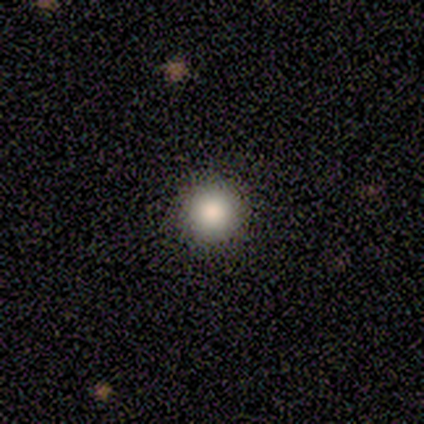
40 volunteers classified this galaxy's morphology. Smooth or featured? smooth (92%)
How rounded? round (100%)
Merging? none (61%)